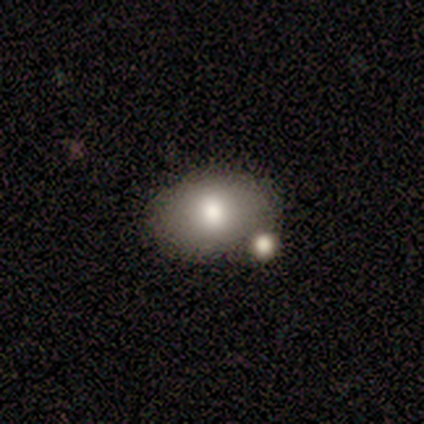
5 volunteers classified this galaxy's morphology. smooth 100%, featured or disk 0%, star or artifact 0%. Down the decision tree: how rounded — in between (100%); merging — none (80%).